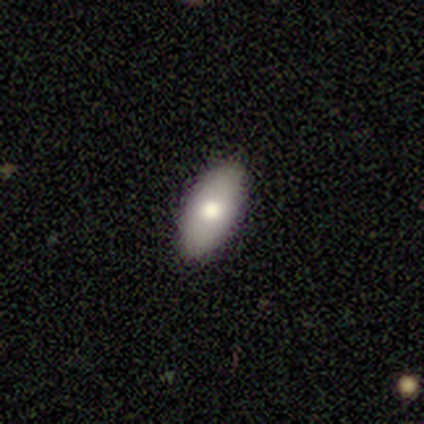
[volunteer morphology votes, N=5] Smooth or featured? smooth (100%)
How rounded? in between (100%)
Merging? none (80%)